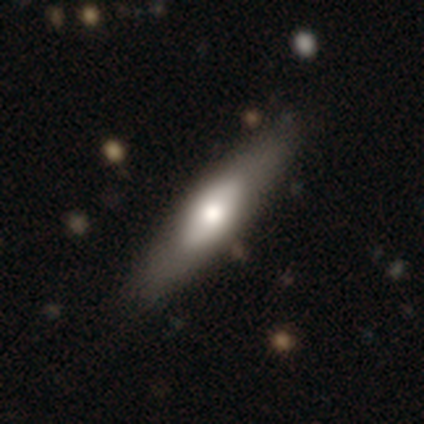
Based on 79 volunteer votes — Smooth or featured: smooth — 56% (featured or disk — 38%)
How rounded: in between — 50% (tied with cigar-shaped — 50%)
Merging: none — 41% (minor disturbance — 5%)